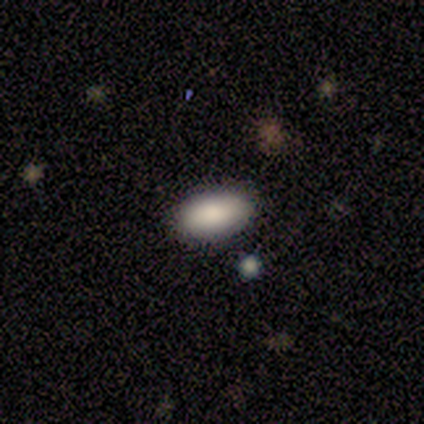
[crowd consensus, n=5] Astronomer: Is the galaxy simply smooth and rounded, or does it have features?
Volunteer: smooth — 100%.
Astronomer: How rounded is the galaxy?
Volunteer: in between — 100%.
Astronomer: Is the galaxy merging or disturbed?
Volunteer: none — 100%.